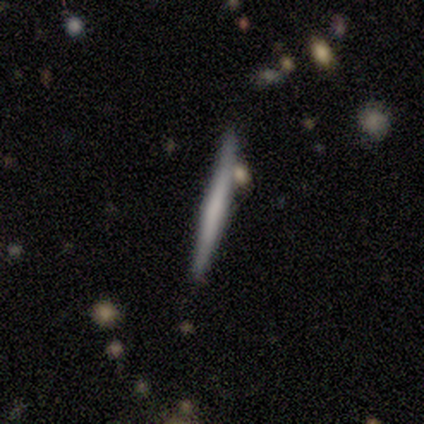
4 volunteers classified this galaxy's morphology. Smooth or featured: featured or disk — 75% (smooth — 25%)
Edge-on disk: yes — 100%
Edge-on bulge: rounded — 67% (none — 33%)
Merging: none — 75% (major disturbance — 25%)